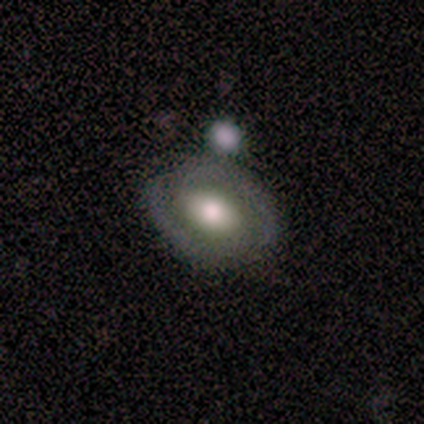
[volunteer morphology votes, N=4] Smooth or featured? 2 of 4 (50%, tied with featured or disk) said smooth. How rounded? 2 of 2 (100%) said in between. Merging? 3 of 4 (75%) said none.